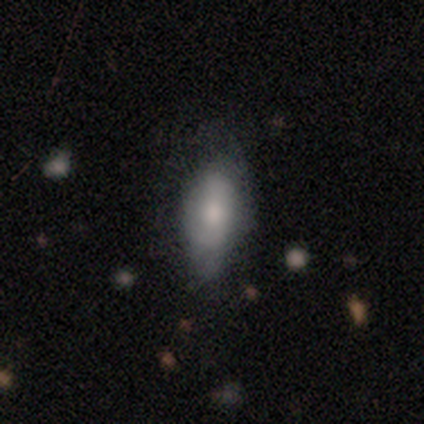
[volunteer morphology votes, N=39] This is likely a smooth galaxy (74%). How rounded: clearly in between (90%). Merging: likely none (61%).